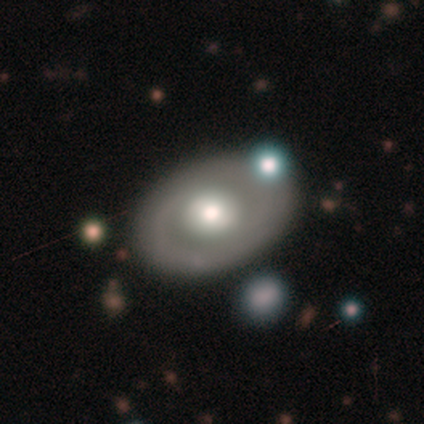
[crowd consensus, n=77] smooth-or-featured: featured or disk: 68% | smooth: 23% | star or artifact: 9%
  disk-edge-on: no: 94% | yes: 6%
    bar: no: 82% | weak: 14% | strong: 4%
    has-spiral-arms: no: 80% | yes: 20%
    bulge-size: moderate: 55% | large: 41% | dominant: 4% | small: 0% | none: 0%
  merging: none: 73% | minor disturbance: 16% | merger: 7% | major disturbance: 4%